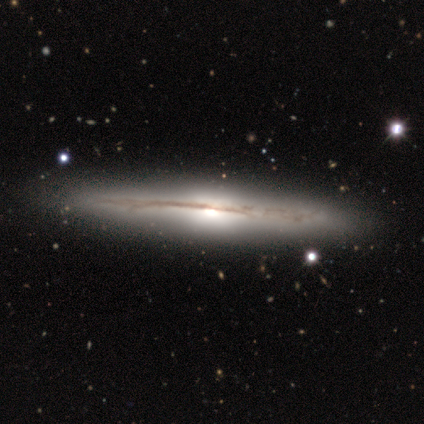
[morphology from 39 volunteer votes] Smooth or featured? featured or disk (85%)
Edge-on disk? yes (94%)
Edge-on bulge? rounded (68%)
Merging? none (90%)